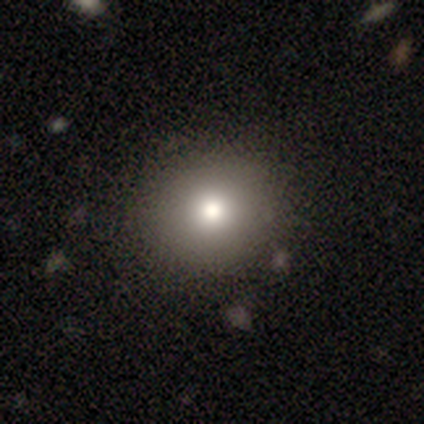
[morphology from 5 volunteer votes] Volunteers were most divided on "smooth or featured" (2-way tie): smooth: 40%, featured or disk: 40%, star or artifact: 20%. More confident: how rounded — round (100%); merging — none (100%).